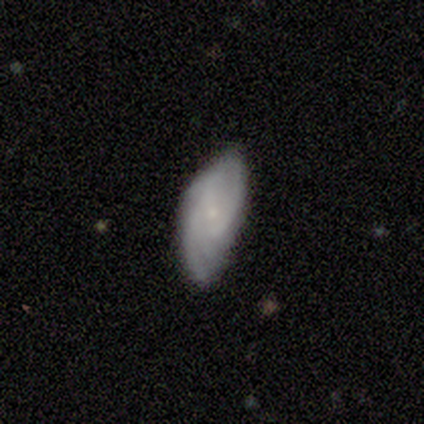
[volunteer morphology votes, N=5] smooth-or-featured: featured or disk: 100% | smooth: 0% | star or artifact: 0%
  disk-edge-on: no: 80% | yes: 20%
    bar: no: 75% | weak: 25% | strong: 0%
    has-spiral-arms: yes: 100% | no: 0%
      spiral-winding: medium: 50% | tight: 25% | loose: 25%
      spiral-arm-count: 2: 50% (tied) | can't tell: 50% (tied) | 1: 0% | 3: 0% | 4: 0% | more than 4: 0%
    bulge-size: small: 100% | dominant: 0% | large: 0% | moderate: 0% | none: 0%
  merging: none: 60% | minor disturbance: 40% | major disturbance: 0% | merger: 0%